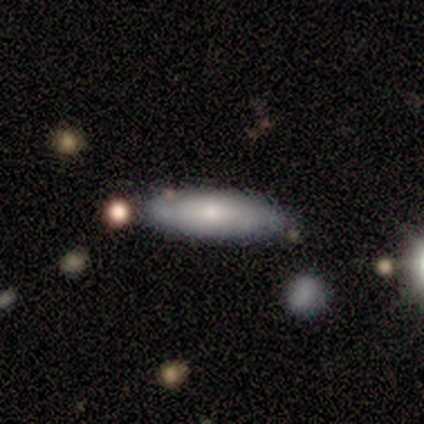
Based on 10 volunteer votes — smooth 50% (tied), featured or disk 50% (tied), star or artifact 0%. Down the decision tree: how rounded — in between (80%); merging — none (100%).